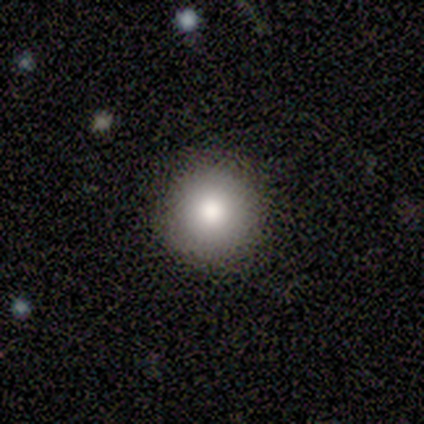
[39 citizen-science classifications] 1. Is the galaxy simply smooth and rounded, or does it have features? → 79% smooth, 13% featured or disk, 8% star or artifact.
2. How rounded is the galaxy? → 100% round, 0% in between, 0% cigar-shaped.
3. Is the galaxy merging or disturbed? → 94% none, 6% minor disturbance, 0% major disturbance, 0% merger.